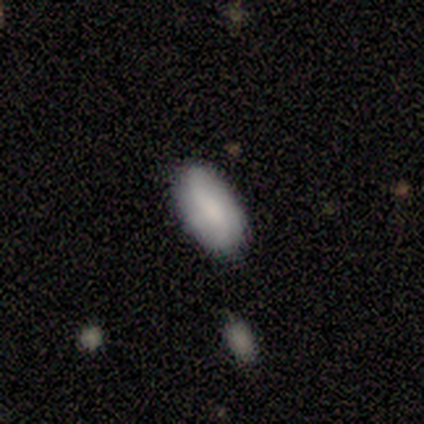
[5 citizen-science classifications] Smooth or featured?
  - smooth: 40% * (tied)
  - star or artifact: 40% * (tied)
  - featured or disk: 20%
How rounded?
  - in between: 100% *
  - round: 0%
  - cigar-shaped: 0%
Merging?
  - none: 100% *
  - minor disturbance: 0%
  - major disturbance: 0%
  - merger: 0%